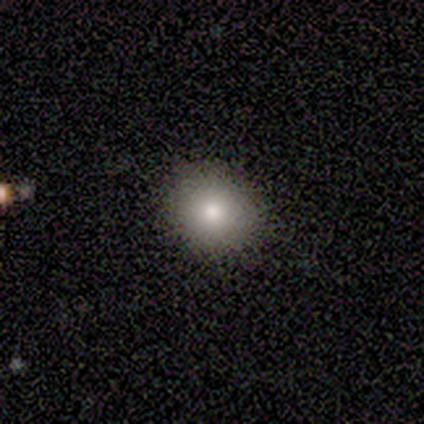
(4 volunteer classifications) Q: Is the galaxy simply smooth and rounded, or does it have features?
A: smooth — 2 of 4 (50%).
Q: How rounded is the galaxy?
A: round — 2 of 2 (100%).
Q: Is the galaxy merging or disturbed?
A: none — 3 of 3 (100%).